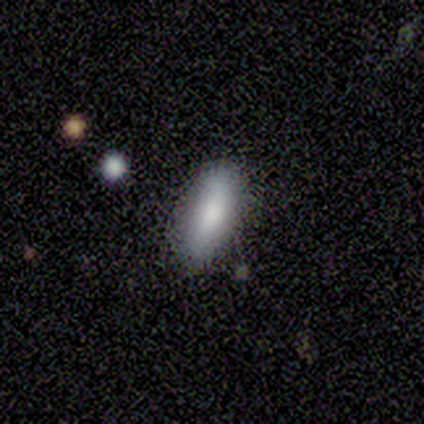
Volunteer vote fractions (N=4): Morphology: type=smooth (50%); roundness=in between (50%, tied with cigar-shaped); merging=none (67%).